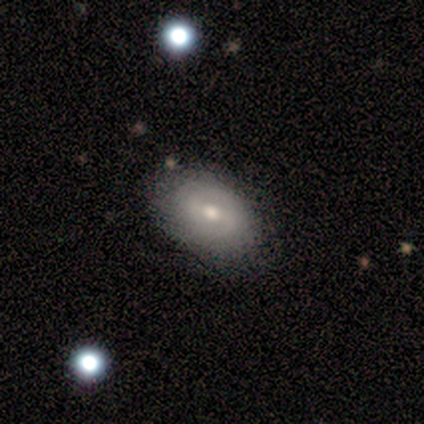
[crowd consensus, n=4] Overall: smooth (50%, tied with featured or disk). How rounded: in between (100%). Merging: none (100%).